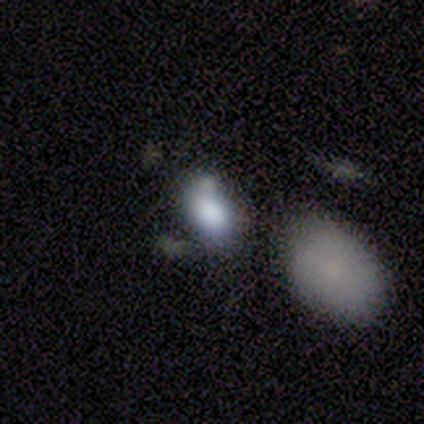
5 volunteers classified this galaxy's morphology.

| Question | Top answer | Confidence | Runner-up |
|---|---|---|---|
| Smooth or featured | smooth | 80% | star or artifact (20%) |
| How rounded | in between | 75% | round (25%) |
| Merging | none | 75% | minor disturbance (25%) |